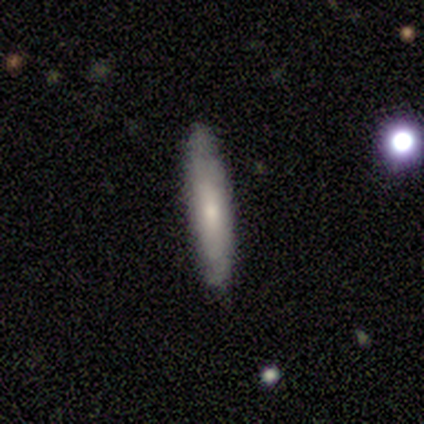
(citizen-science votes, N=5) A featured or disk galaxy (60%) viewed edge-on (67%) with no central bulge (50%, tied with rounded).

Vote fractions:
- Smooth or featured? featured or disk: 60% / smooth: 40% / star or artifact: 0%
- Edge-on disk? yes: 67% / no: 33%
- Edge-on bulge? none: 50% (tied) / rounded: 50% (tied) / boxy: 0%
- Merging? none: 100% / minor disturbance: 0% / major disturbance: 0% / merger: 0%